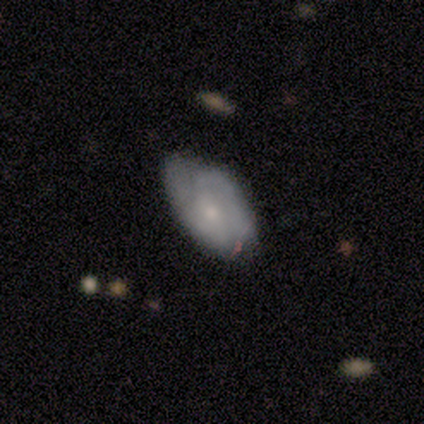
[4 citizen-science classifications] A featured or disk galaxy (75%) with no bar (100%), tight (100%) spiral arms (67%) and a small central bulge (67%). Merging: minor disturbance (75%).